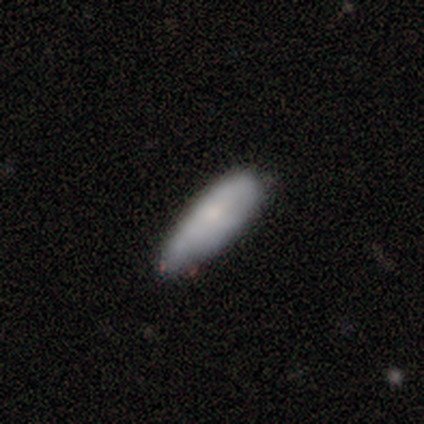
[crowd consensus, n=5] A smooth galaxy with no disk features (80%) that is in between round and cigar-shaped (75%).

Vote fractions:
- Smooth or featured? smooth: 80% / featured or disk: 20% / star or artifact: 0%
- How rounded? in between: 75% / cigar-shaped: 25% / round: 0%
- Merging? minor disturbance: 60% / none: 40% / major disturbance: 0% / merger: 0%